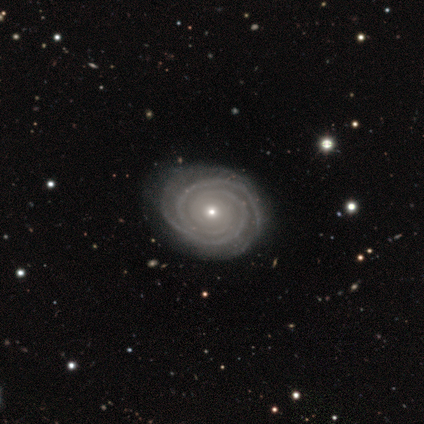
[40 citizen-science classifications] Volunteers were most divided on "bulge size": small: 67%, moderate: 31%, none: 3%, dominant: 0%, large: 0%. More confident: spiral arms — yes (100%); edge-on disk — no (97%); spiral winding — tight (94%); smooth or featured — featured or disk (92%); bar — no (86%); spiral arm count — 2 (78%); merging — none (58%).